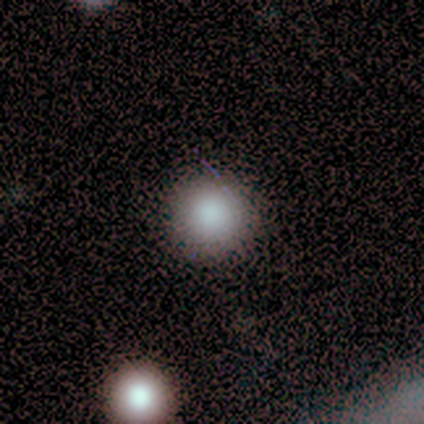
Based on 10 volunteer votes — A smooth galaxy with no disk features (90%) that is round (100%).

Vote fractions:
- Smooth or featured? smooth: 90% / featured or disk: 10% / star or artifact: 0%
- How rounded? round: 100% / in between: 0% / cigar-shaped: 0%
- Merging? none: 80% / minor disturbance: 20% / major disturbance: 0% / merger: 0%